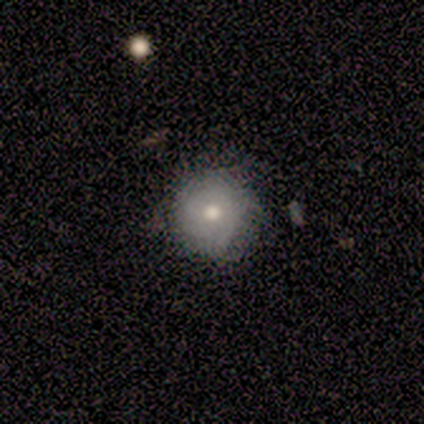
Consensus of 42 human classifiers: Smooth or featured?
  - smooth: 67% *
  - featured or disk: 19%
  - star or artifact: 14%
How rounded?
  - round: 93% *
  - in between: 7%
  - cigar-shaped: 0%
Merging?
  - none: 89% *
  - minor disturbance: 6%
  - major disturbance: 6%
  - merger: 0%